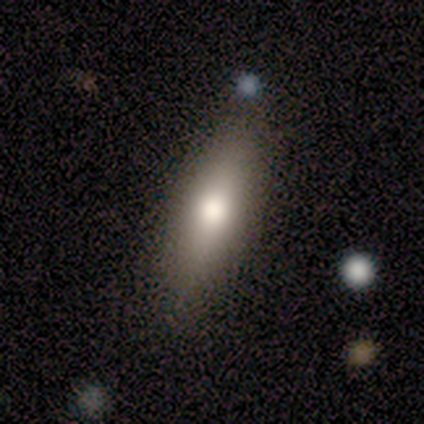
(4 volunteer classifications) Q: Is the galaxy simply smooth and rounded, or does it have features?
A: smooth — 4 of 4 (100%).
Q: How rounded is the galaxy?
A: cigar-shaped — 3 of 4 (75%).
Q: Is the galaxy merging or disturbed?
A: none — 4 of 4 (100%).